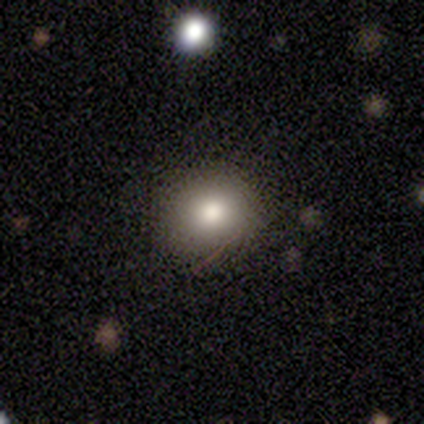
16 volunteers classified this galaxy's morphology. Volunteers were most divided on "merging": none: 79%, minor disturbance: 21%, major disturbance: 0%, merger: 0%. More confident: how rounded — round (93%); smooth or featured — smooth (88%).